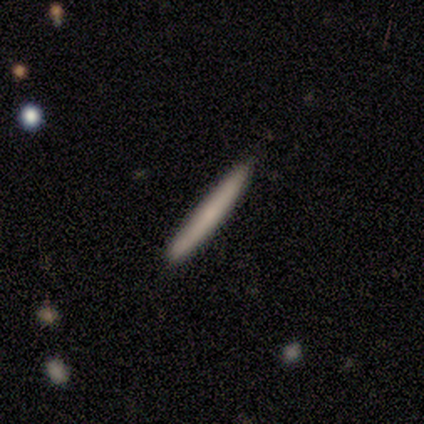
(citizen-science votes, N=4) Overall: featured or disk (75%). Edge-on disk: yes (100%). Edge-on bulge: none (67%; boxy 33%). Merging: none (50%; minor disturbance 25%).